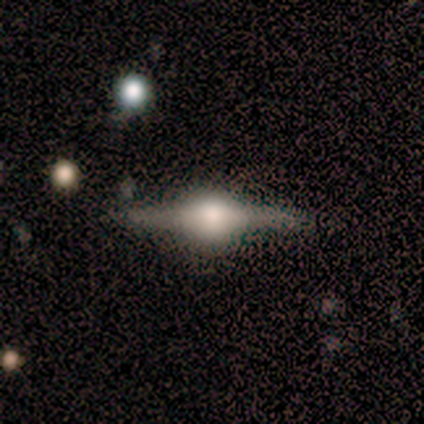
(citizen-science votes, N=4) smooth-or-featured: featured or disk: 100% | smooth: 0% | star or artifact: 0%
  disk-edge-on: yes: 100% | no: 0%
    edge-on-bulge: rounded: 100% | boxy: 0% | none: 0%
  merging: none: 100% | minor disturbance: 0% | major disturbance: 0% | merger: 0%